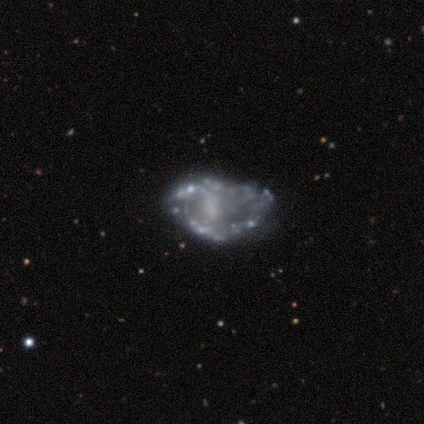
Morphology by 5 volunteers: A featured or disk galaxy (80%) with no bar (75%), no spiral arms (75%) and no central bulge (50%).

Vote fractions:
- Smooth or featured? featured or disk: 80% / star or artifact: 20% / smooth: 0%
- Edge-on disk? no: 100% / yes: 0%
- Bar? no: 75% / weak: 25% / strong: 0%
- Spiral arms? no: 75% / yes: 25%
- Bulge size? none: 50% / large: 25% / moderate: 25% / dominant: 0% / small: 0%
- Merging? major disturbance: 50% / none: 25% / merger: 25% / minor disturbance: 0%